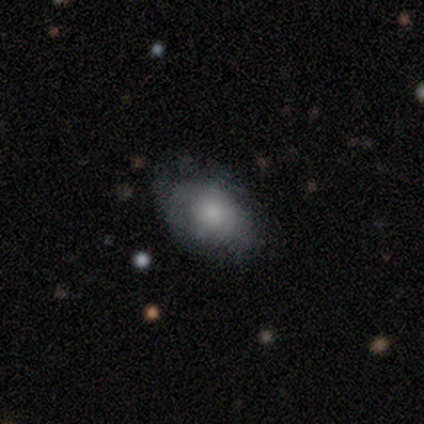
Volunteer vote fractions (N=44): A smooth galaxy with no disk features (82%) that is in between round and cigar-shaped (83%). Merging: none (78%).